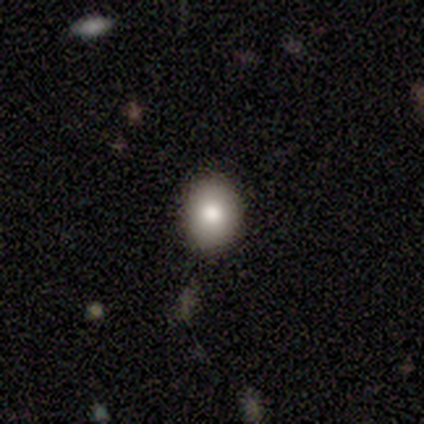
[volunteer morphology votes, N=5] Smooth or featured: smooth — 60% (featured or disk — 20%)
How rounded: in between — 67% (round — 33%)
Merging: none — 100%